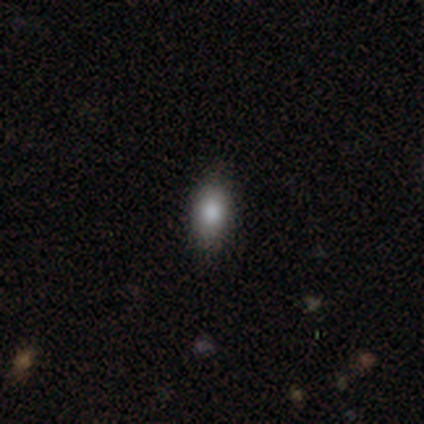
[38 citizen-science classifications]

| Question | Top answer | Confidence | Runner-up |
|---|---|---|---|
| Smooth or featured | smooth | 87% | featured or disk (11%) |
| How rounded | in between | 85% | cigar-shaped (12%) |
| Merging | none | 86% | minor disturbance (14%) |